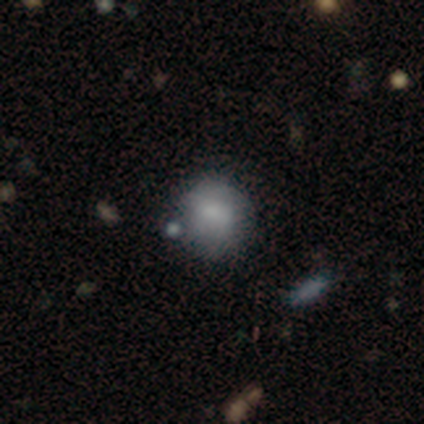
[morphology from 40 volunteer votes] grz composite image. It shows a smooth galaxy with no disk features (75%) that is round (77%). Merging: none (70%).